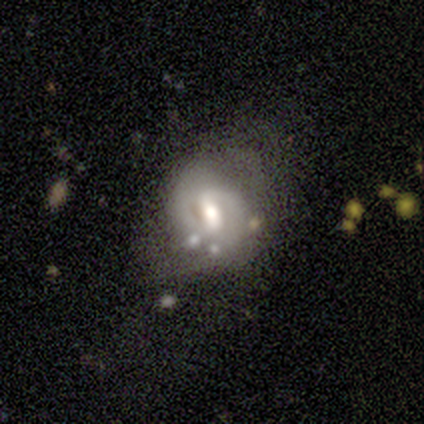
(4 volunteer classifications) Smooth or featured? 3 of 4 (75%) said featured or disk. Edge-on disk? 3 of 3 (100%) said no. Bar? 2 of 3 (67%) said no. Spiral arms? 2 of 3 (67%) said no. Bulge size? 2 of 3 (67%) said moderate. Merging? 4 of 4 (100%) said none.